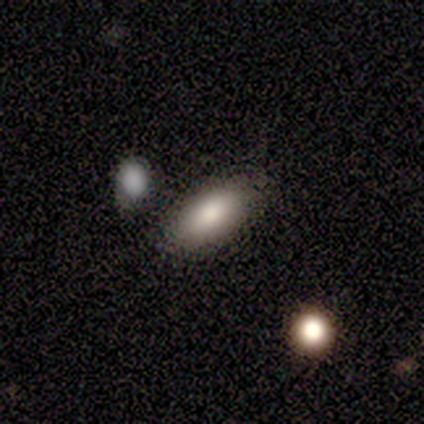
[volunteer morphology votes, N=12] type=smooth (92%); roundness=in between (100%); merging=none (91%).